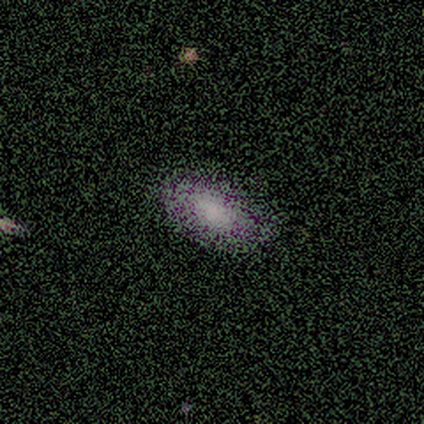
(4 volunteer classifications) smooth-or-featured: smooth: 100% | featured or disk: 0% | star or artifact: 0%
  how-rounded: in between: 100% | round: 0% | cigar-shaped: 0%
  merging: none: 100% | minor disturbance: 0% | major disturbance: 0% | merger: 0%